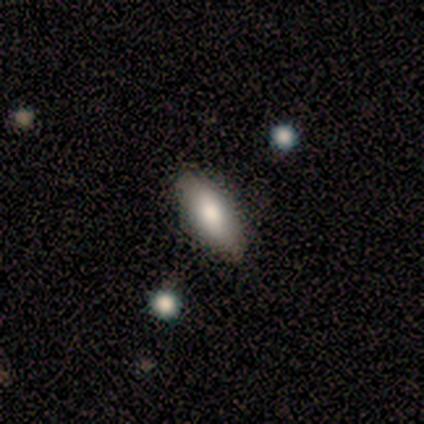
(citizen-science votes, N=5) smooth-or-featured: smooth: 60% | star or artifact: 40% | featured or disk: 0%
  how-rounded: in between: 100% | round: 0% | cigar-shaped: 0%
  merging: none: 100% | minor disturbance: 0% | major disturbance: 0% | merger: 0%